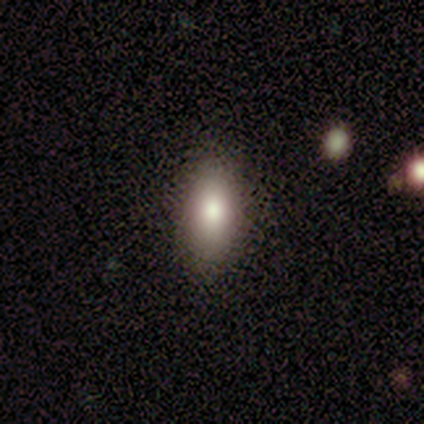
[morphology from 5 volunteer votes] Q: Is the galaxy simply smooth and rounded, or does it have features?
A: smooth — 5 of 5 (100%).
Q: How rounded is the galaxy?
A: in between — 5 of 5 (100%).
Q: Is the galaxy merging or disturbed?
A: none — 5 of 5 (100%).